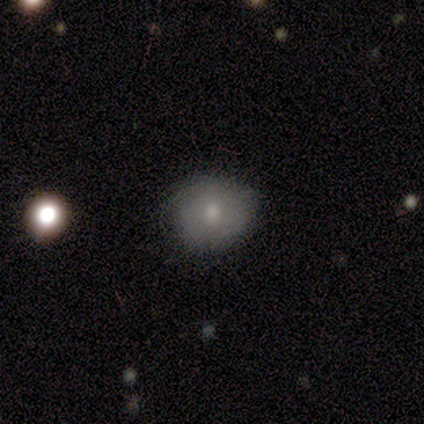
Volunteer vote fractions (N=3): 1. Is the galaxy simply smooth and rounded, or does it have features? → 67% smooth, 33% featured or disk, 0% star or artifact.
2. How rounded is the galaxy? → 50% round (tied), 50% in between (tied), 0% cigar-shaped.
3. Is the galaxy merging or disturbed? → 67% minor disturbance, 33% none, 0% major disturbance, 0% merger.